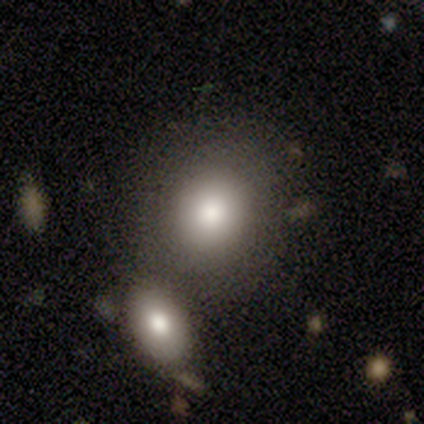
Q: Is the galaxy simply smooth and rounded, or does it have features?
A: smooth — 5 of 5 (100%).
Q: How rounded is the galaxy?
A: round — 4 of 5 (80%).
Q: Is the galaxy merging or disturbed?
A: none — 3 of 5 (60%).